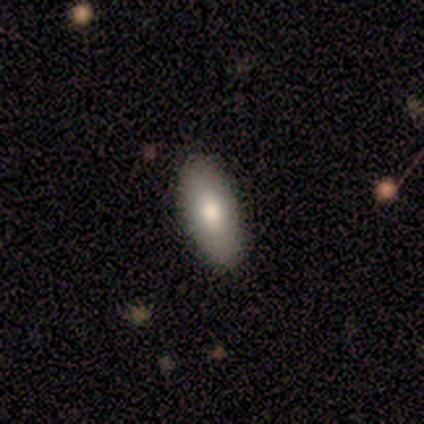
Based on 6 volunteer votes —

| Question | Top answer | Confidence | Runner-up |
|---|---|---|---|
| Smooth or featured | smooth | 83% | star or artifact (17%) |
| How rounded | in between | 80% | cigar-shaped (20%) |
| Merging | none | 80% | minor disturbance (20%) |